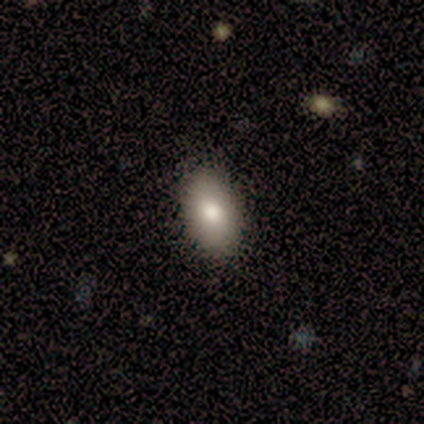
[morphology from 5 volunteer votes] A smooth galaxy with no disk features (100%) that is in between round and cigar-shaped (80%). Merging: none (100%).